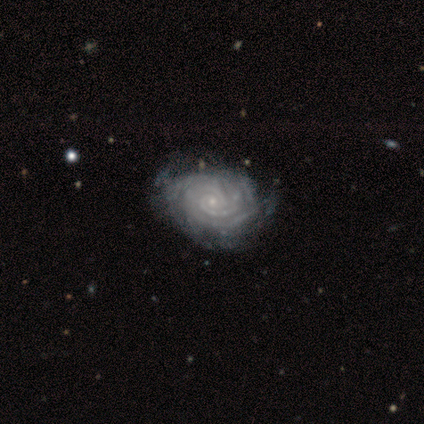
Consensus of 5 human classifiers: Smooth or featured: featured or disk — 100%
Edge-on disk: no — 100%
Bar: no — 80% (strong — 20%)
Spiral arms: yes — 100%
Spiral winding: tight — 100%
Spiral arm count: 2 — 60% (can't tell — 40%)
Bulge size: small — 100%
Merging: none — 100%